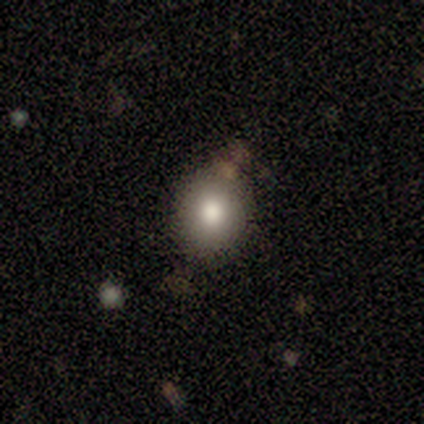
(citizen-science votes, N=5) smooth 100%, featured or disk 0%, star or artifact 0%. Down the decision tree: how rounded — round (60%); merging — none (100%).